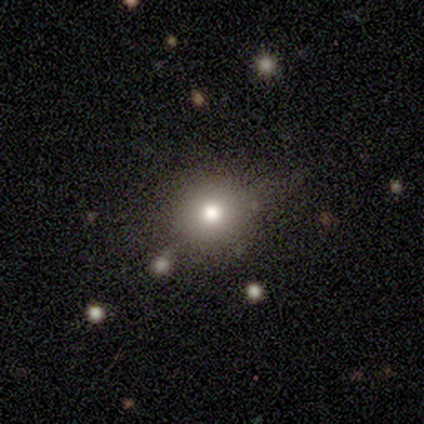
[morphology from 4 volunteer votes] A star or artifact, not a galaxy (75%).